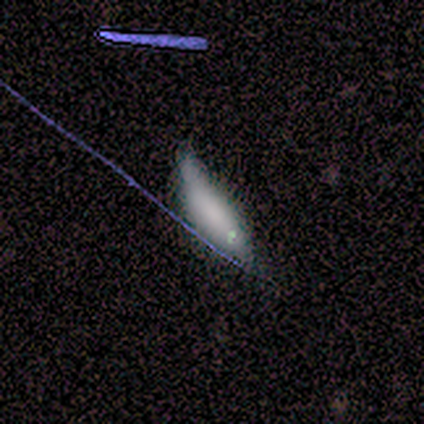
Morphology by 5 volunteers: smooth 60%, featured or disk 40%, star or artifact 0%. Down the decision tree: how rounded — cigar-shaped (67%); merging — minor disturbance (80%).